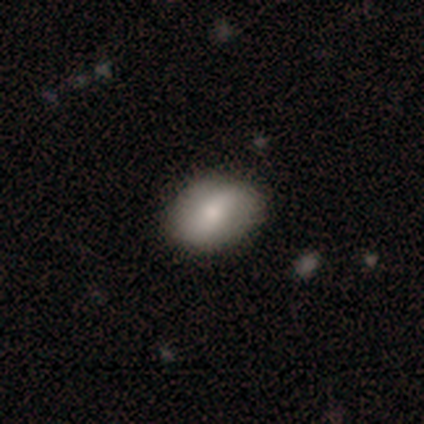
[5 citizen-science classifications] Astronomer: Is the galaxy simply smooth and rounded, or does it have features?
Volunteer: smooth — 80%.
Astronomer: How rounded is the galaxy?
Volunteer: in between — 75%.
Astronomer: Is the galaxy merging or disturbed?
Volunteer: none — 100%.